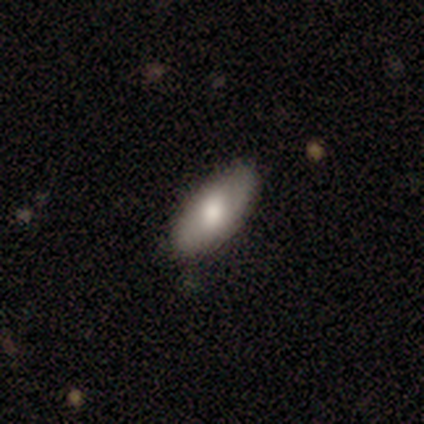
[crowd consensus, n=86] Smooth or featured? 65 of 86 (76%) said smooth. How rounded? 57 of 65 (88%) said in between. Merging? 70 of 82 (85%) said none.